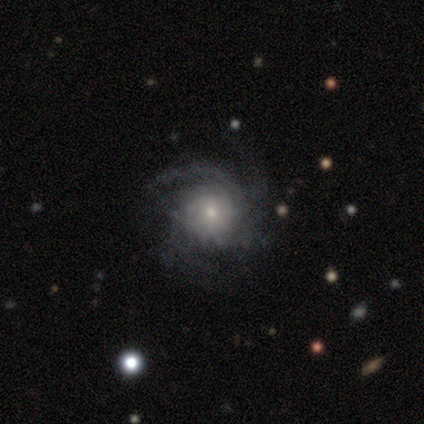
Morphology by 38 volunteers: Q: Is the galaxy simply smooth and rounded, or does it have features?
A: featured or disk — 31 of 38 (82%).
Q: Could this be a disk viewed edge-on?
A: no — 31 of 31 (100%).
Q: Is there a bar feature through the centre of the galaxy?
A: no — 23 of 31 (74%).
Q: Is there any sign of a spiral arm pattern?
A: yes — 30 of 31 (97%).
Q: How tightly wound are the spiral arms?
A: tight — 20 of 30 (67%).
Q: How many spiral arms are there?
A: can't tell — 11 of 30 (37%).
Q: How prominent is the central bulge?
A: small — 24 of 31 (77%).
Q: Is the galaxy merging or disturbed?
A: none — 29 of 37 (78%).